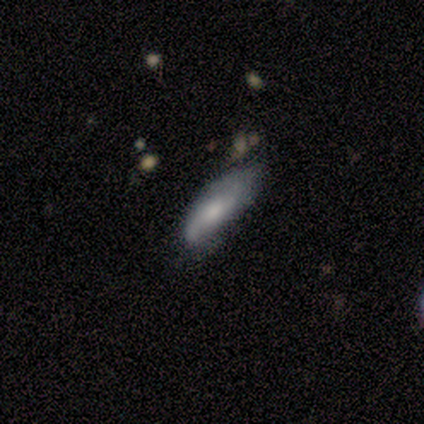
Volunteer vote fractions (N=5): Smooth or featured?
  - featured or disk: 60% *
  - smooth: 40%
  - star or artifact: 0%
Edge-on disk?
  - no: 67% *
  - yes: 33%
Bar?
  - strong: 50% * (tied)
  - no: 50% * (tied)
  - weak: 0%
Spiral arms?
  - yes: 100% *
  - no: 0%
Spiral winding?
  - medium: 50% * (tied)
  - loose: 50% * (tied)
  - tight: 0%
Spiral arm count?
  - 2: 100% *
  - 1: 0%
  - 3: 0%
  - 4: 0%
  - more than 4: 0%
  - can't tell: 0%
Bulge size?
  - moderate: 100% *
  - dominant: 0%
  - large: 0%
  - small: 0%
  - none: 0%
Merging?
  - none: 80% *
  - minor disturbance: 20%
  - major disturbance: 0%
  - merger: 0%